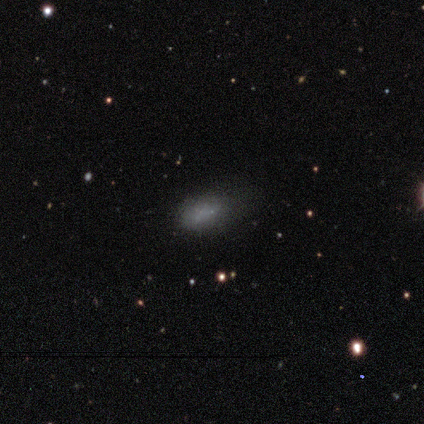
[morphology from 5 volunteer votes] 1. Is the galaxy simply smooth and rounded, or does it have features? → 40% smooth (tied), 40% star or artifact (tied), 20% featured or disk.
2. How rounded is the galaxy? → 100% in between, 0% round, 0% cigar-shaped.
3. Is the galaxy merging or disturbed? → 67% none, 33% minor disturbance, 0% major disturbance, 0% merger.